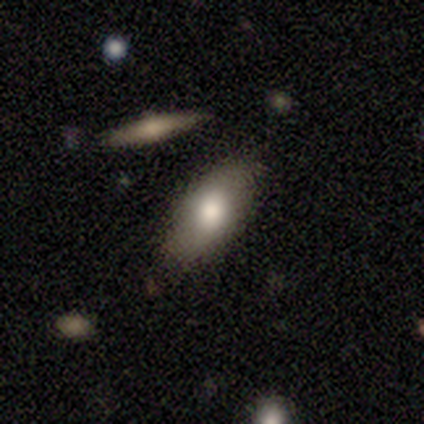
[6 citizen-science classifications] smooth-or-featured: smooth: 83% | star or artifact: 17% | featured or disk: 0%
  how-rounded: in between: 80% | cigar-shaped: 20% | round: 0%
  merging: none: 60% | minor disturbance: 40% | major disturbance: 0% | merger: 0%